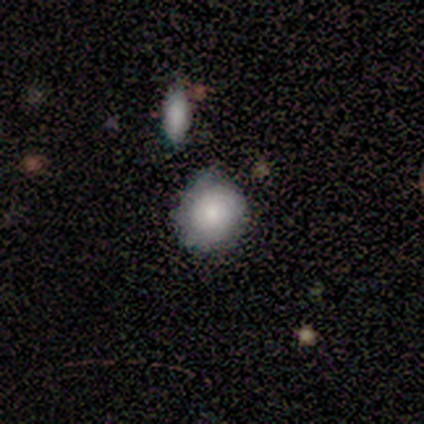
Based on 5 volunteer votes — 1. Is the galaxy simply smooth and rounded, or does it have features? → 80% smooth, 20% featured or disk, 0% star or artifact.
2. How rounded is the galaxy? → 100% round, 0% in between, 0% cigar-shaped.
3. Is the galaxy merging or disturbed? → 60% none, 20% major disturbance, 20% merger, 0% minor disturbance.